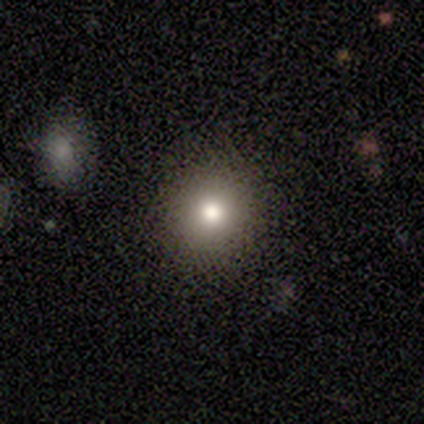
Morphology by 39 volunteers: Smooth or featured? 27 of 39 (69%) said smooth. How rounded? 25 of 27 (93%) said round. Merging? 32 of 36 (89%) said none.